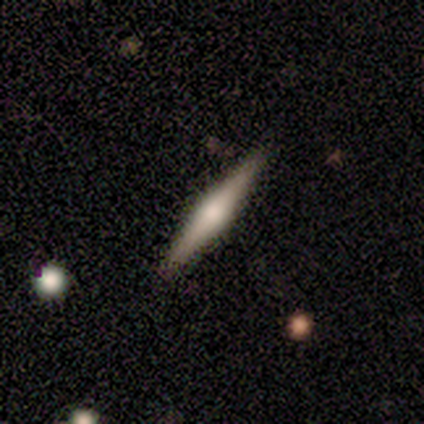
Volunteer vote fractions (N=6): This appears to be a featured or disk galaxy (100%) viewed edge-on (100%) with a rounded central bulge (67%). Merging: none (100%).